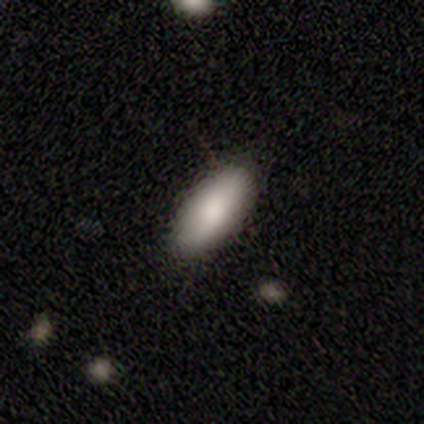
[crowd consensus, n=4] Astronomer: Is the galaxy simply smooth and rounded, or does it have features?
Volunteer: smooth — 75%.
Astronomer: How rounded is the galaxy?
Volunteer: in between — 100%.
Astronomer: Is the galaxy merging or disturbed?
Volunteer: none — 100%.